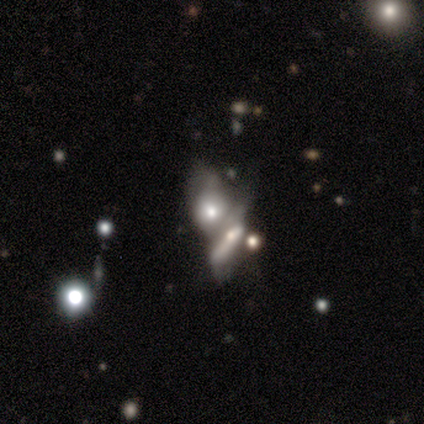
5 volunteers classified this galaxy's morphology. This appears to be a featured or disk galaxy (80%) with no bar (67%), no spiral arms (100%) and a moderate central bulge (67%). Merging: merger (80%).